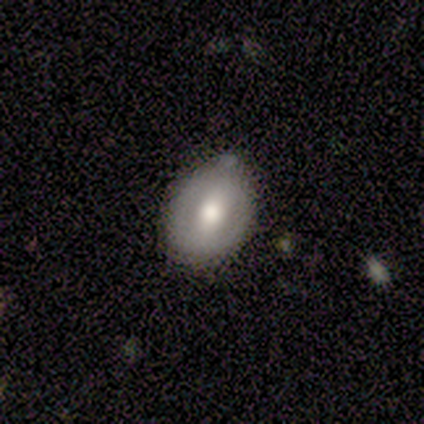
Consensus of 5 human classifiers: smooth-or-featured: smooth: 80% | featured or disk: 20% | star or artifact: 0%
  how-rounded: round: 50% (tied) | in between: 50% (tied) | cigar-shaped: 0%
  merging: none: 60% | minor disturbance: 40% | major disturbance: 0% | merger: 0%